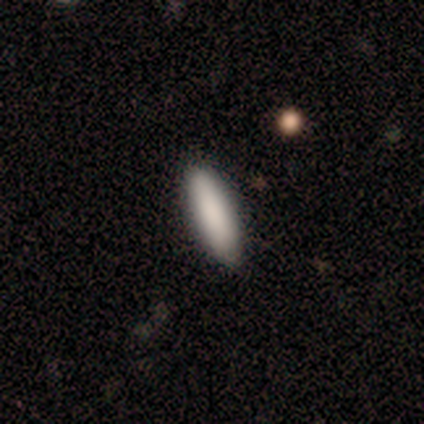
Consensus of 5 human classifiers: Q: Smooth or featured?
A: smooth (100%)
Q: How rounded?
A: cigar-shaped (60%); runner-up: in between (40%)
Q: Merging?
A: none (100%)